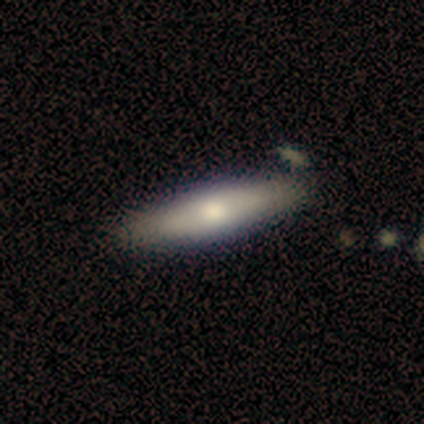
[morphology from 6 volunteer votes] Smooth or featured?
  - smooth: 33% * (tied)
  - featured or disk: 33% * (tied)
  - star or artifact: 33% * (tied)
How rounded?
  - cigar-shaped: 100% *
  - round: 0%
  - in between: 0%
Merging?
  - none: 75% *
  - major disturbance: 25%
  - minor disturbance: 0%
  - merger: 0%